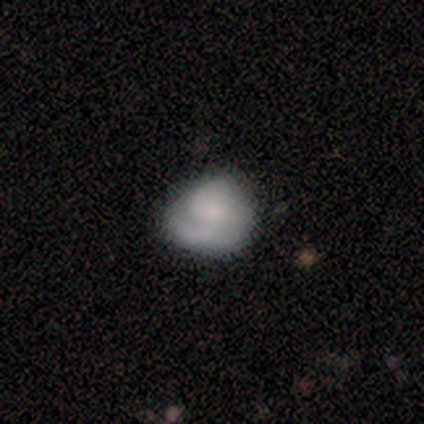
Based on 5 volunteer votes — A featured or disk galaxy (60%) with no bar (67%), no spiral arms (67%) and no central bulge (67%).

Vote fractions:
- Smooth or featured? featured or disk: 60% / smooth: 40% / star or artifact: 0%
- Edge-on disk? no: 100% / yes: 0%
- Bar? no: 67% / weak: 33% / strong: 0%
- Spiral arms? no: 67% / yes: 33%
- Bulge size? none: 67% / small: 33% / dominant: 0% / large: 0% / moderate: 0%
- Merging? none: 40% (tied) / minor disturbance: 40% (tied) / merger: 20% / major disturbance: 0%